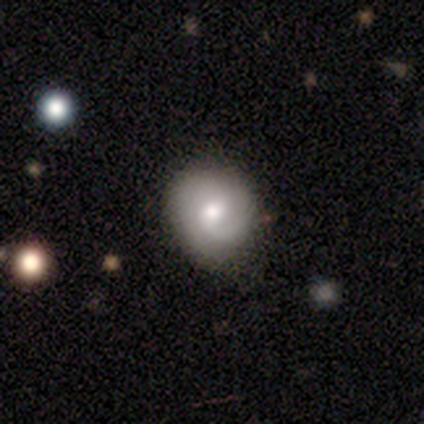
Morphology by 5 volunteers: This appears to be a featured or disk galaxy (80%) with a weak bar (50%, tied with no), 1 (50%, tied with 2) loose (50%) spiral arms (100%) and a moderate central bulge (75%). Merging: none (60%).